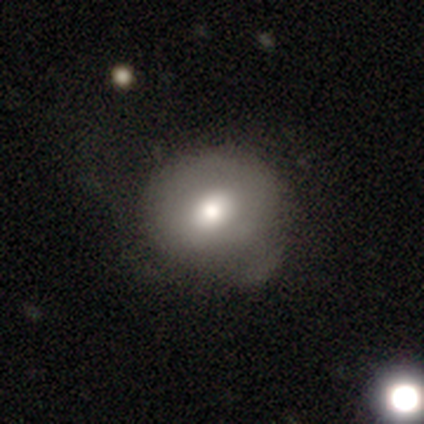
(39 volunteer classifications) Smooth or featured? smooth (77%)
How rounded? round (70%)
Merging? minor disturbance (37%)